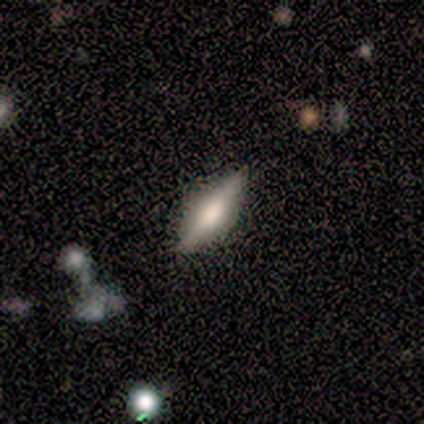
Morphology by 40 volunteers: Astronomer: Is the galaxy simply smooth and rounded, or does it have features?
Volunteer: featured or disk — 57% (runner-up: smooth, 35%).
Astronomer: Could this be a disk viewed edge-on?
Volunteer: yes — 96%.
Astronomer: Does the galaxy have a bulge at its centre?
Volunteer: rounded — 68%.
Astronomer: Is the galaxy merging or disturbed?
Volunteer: none — 86%.